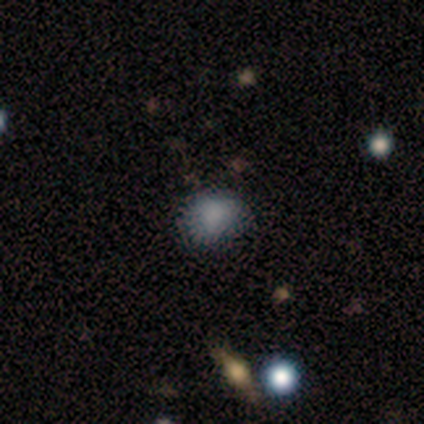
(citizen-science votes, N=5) Smooth or featured?
  - smooth: 60% *
  - featured or disk: 20%
  - star or artifact: 20%
How rounded?
  - round: 100% *
  - in between: 0%
  - cigar-shaped: 0%
Merging?
  - none: 50% * (tied)
  - minor disturbance: 50% * (tied)
  - major disturbance: 0%
  - merger: 0%